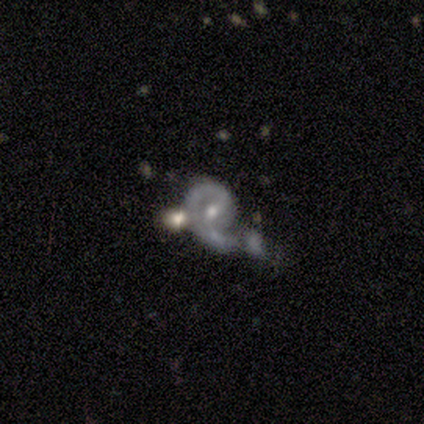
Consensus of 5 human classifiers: Smooth or featured: featured or disk — 100%
Edge-on disk: no — 100%
Bar: no — 60% (weak — 40%)
Spiral arms: yes — 100%
Spiral winding: medium — 60% (tight — 40%)
Spiral arm count: 1 — 60% (2 — 40%)
Bulge size: small — 60% (moderate — 40%)
Merging: none — 80% (major disturbance — 20%)